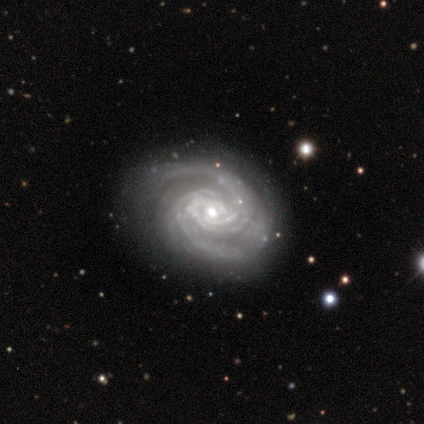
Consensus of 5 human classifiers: smooth_or_featured: featured or disk (p=1.00)
disk_edge_on: no (p=1.00)
bar: strong (p=0.40) [tied with: weak p=0.40]
has_spiral_arms: yes (p=1.00)
spiral_winding: tight (p=0.80) [alt: medium p=0.20]
spiral_arm_count: 2 (p=0.60) [alt: 3 p=0.20]
bulge_size: small (p=0.80) [alt: moderate p=0.20]
merging: none (p=0.80) [alt: minor disturbance p=0.20]